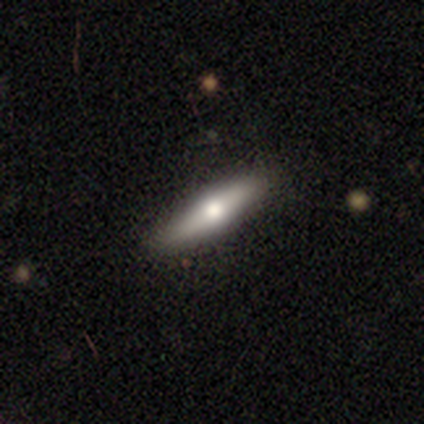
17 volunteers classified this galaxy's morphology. Overall: smooth (65%; featured or disk 35%). How rounded: cigar-shaped (73%). Merging: none (100%).